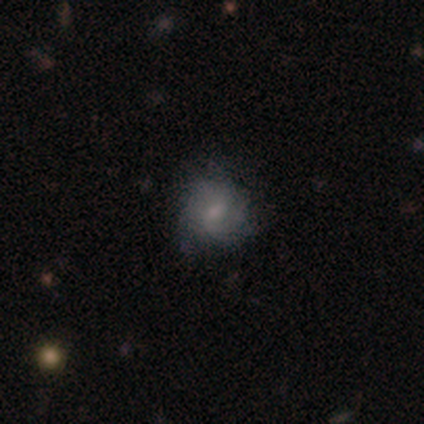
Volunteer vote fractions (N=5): Smooth or featured?
  - featured or disk: 60% *
  - smooth: 40%
  - star or artifact: 0%
Edge-on disk?
  - no: 100% *
  - yes: 0%
Bar?
  - no: 67% *
  - weak: 33%
  - strong: 0%
Spiral arms?
  - yes: 100% *
  - no: 0%
Spiral winding?
  - tight: 33% * (tied)
  - medium: 33% * (tied)
  - loose: 33% * (tied)
Spiral arm count?
  - 2: 33% * (tied)
  - 3: 33% * (tied)
  - can't tell: 33% * (tied)
  - 1: 0%
  - 4: 0%
  - more than 4: 0%
Bulge size?
  - small: 100% *
  - dominant: 0%
  - large: 0%
  - moderate: 0%
  - none: 0%
Merging?
  - none: 100% *
  - minor disturbance: 0%
  - major disturbance: 0%
  - merger: 0%